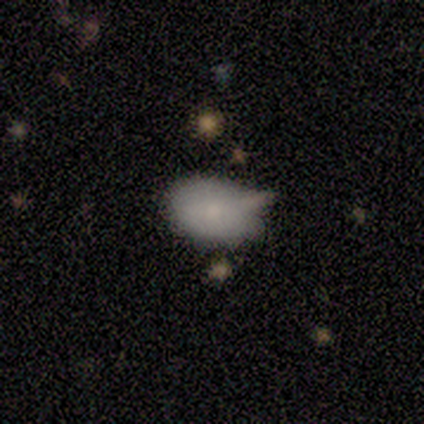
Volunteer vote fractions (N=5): Morphology: type=smooth (80%); roundness=in between (75%); merging=minor disturbance (60%).